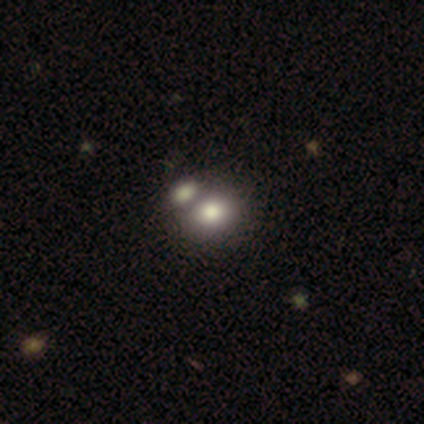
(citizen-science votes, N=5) Smooth or featured: smooth — 80% (featured or disk — 20%)
How rounded: round — 100%
Merging: none — 40% (tied with merger — 40%)